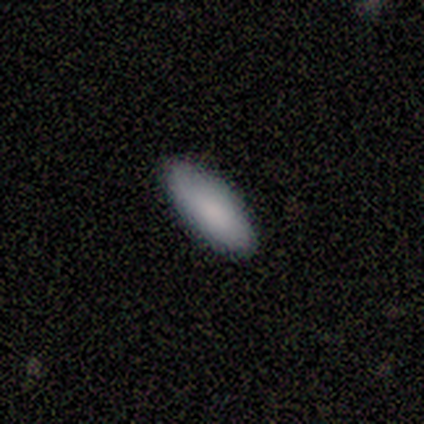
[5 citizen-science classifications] smooth_or_featured: smooth (p=1.00)
how_rounded: in between (p=0.60) [alt: cigar-shaped p=0.40]
merging: none (p=0.60) [alt: minor disturbance p=0.40]